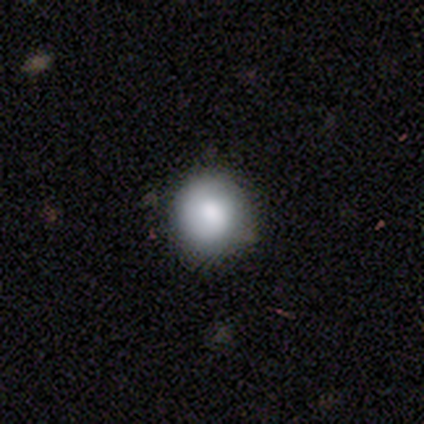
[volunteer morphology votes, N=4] type=smooth (100%); roundness=round (100%); merging=none (50%, tied with minor disturbance).